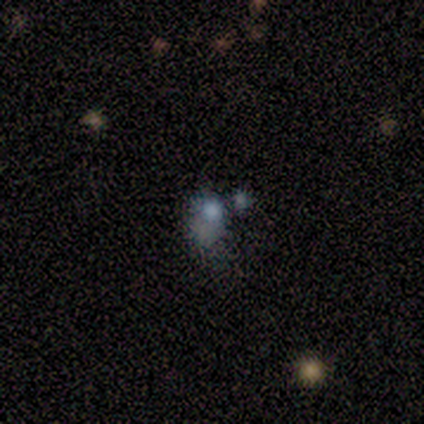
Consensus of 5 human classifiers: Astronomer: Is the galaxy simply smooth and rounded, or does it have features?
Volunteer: smooth — 40%, tied with featured or disk at 40%.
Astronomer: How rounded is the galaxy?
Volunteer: round — 50%, tied with in between at 50%.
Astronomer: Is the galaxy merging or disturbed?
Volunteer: none — 75%.